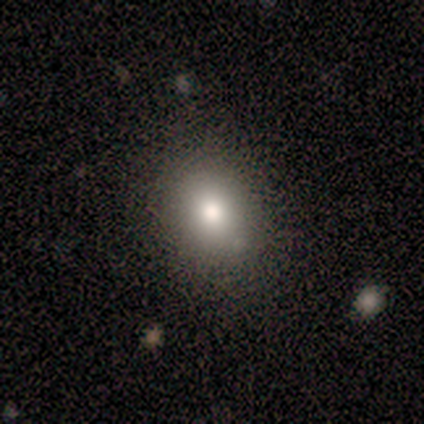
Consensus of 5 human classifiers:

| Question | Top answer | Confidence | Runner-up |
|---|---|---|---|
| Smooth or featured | smooth | 60% | featured or disk (20%) |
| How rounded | round | 67% | in between (33%) |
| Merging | none | 100% | — |